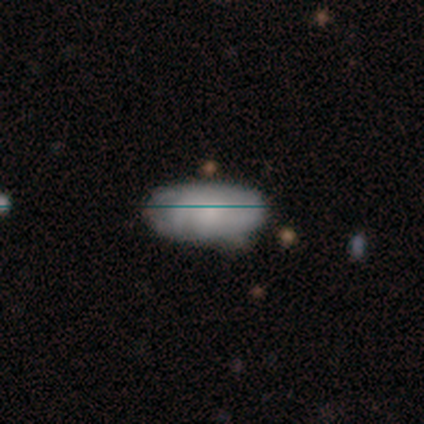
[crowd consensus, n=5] This appears to be a smooth galaxy with no disk features (80%) that is in between round and cigar-shaped (100%). Merging: none (80%).